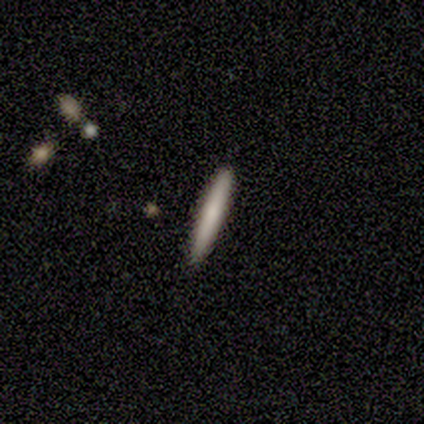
smooth 100%, featured or disk 0%, star or artifact 0%. Down the decision tree: how rounded — cigar-shaped (89%); merging — none (78%).